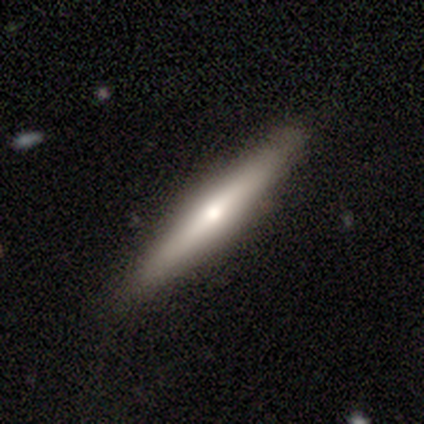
This appears to be a featured or disk galaxy (80%) viewed edge-on (100%) with a rounded central bulge (100%). Merging: none (80%).